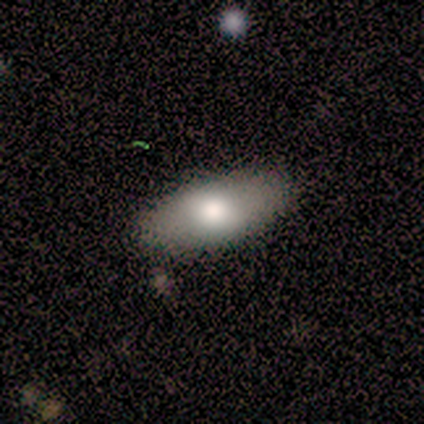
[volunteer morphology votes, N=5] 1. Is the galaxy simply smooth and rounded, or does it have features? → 100% smooth, 0% featured or disk, 0% star or artifact.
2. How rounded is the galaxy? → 100% in between, 0% round, 0% cigar-shaped.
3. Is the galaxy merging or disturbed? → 100% none, 0% minor disturbance, 0% major disturbance, 0% merger.